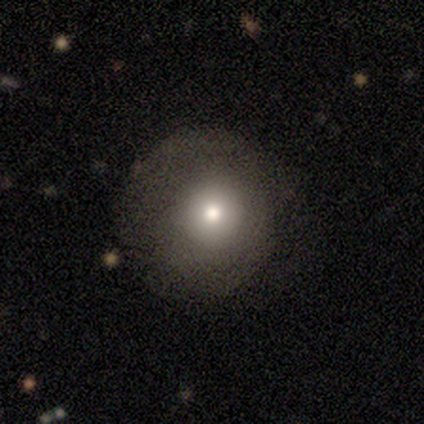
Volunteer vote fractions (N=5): Volunteers were most divided on "smooth or featured": smooth: 60%, featured or disk: 20%, star or artifact: 20%. More confident: how rounded — round (100%); merging — none (100%).